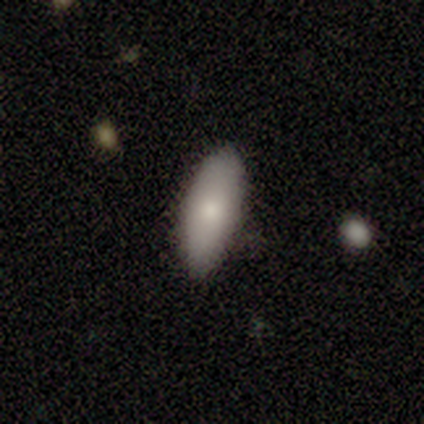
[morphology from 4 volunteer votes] Smooth or featured? 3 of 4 (75%) said smooth. How rounded? 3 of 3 (100%) said in between. Merging? 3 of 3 (100%) said none.